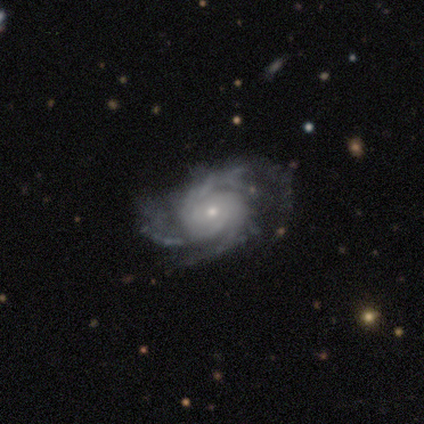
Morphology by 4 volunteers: Smooth or featured? 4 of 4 (100%) said featured or disk. Edge-on disk? 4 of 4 (100%) said no. Bar? 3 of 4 (75%) said no. Spiral arms? 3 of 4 (75%) said yes. Spiral winding? 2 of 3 (67%) said tight. Spiral arm count? 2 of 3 (67%) said 3. Bulge size? 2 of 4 (50%) said small. Merging? 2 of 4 (50%) said none.